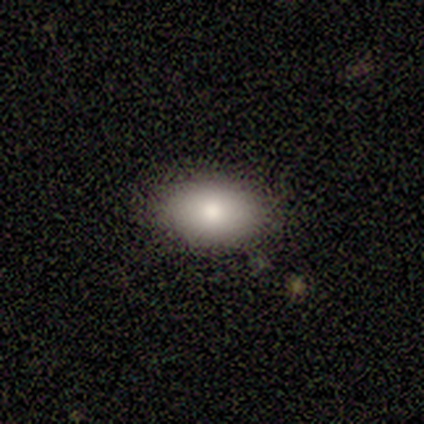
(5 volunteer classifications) This is clearly a smooth galaxy (100%). How rounded: clearly in between (100%). Merging: clearly none (100%).